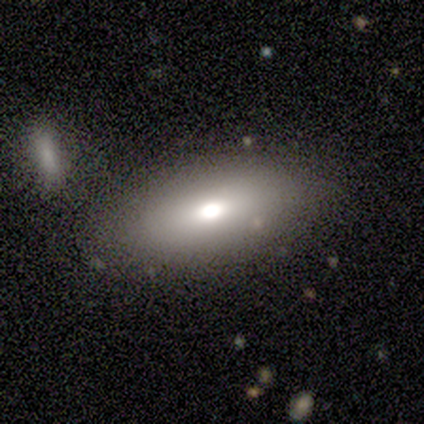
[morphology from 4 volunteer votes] smooth_or_featured: smooth (p=0.75) [alt: featured or disk p=0.25]
how_rounded: in between (p=1.00)
merging: none (p=1.00)